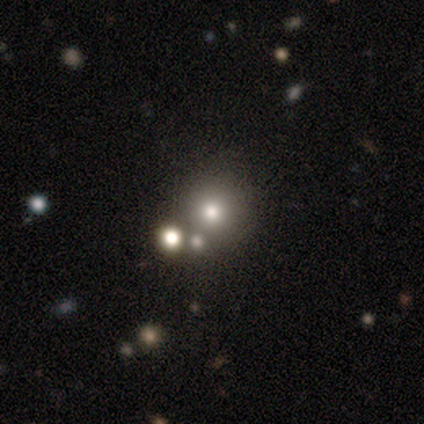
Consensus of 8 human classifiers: smooth_or_featured: star or artifact (p=0.62) [alt: smooth p=0.25]